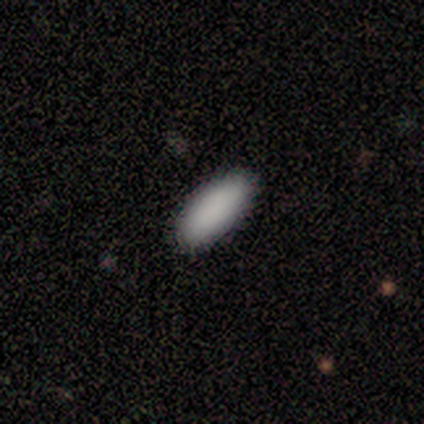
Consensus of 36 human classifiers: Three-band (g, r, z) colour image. It shows a smooth galaxy with no disk features (94%) that is in between round and cigar-shaped (88%). Merging: none (86%).